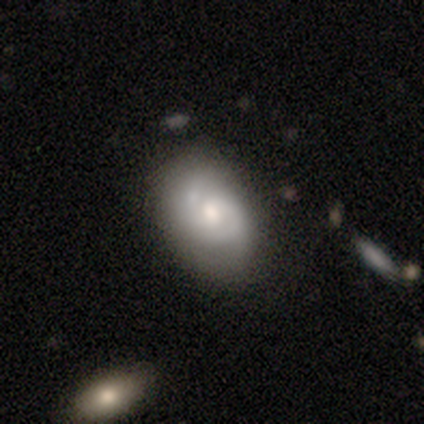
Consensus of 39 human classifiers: Smooth or featured? featured or disk (67%)
Edge-on disk? no (100%)
Bar? no (73%)
Spiral arms? yes (73%)
Spiral winding? medium (42%)
Spiral arm count? 2 (47%)
Bulge size? moderate (58%)
Merging? none (61%)